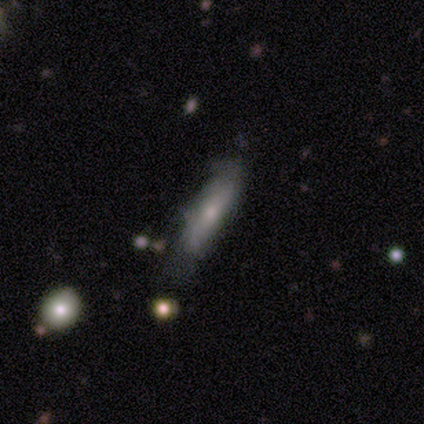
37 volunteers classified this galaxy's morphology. Smooth or featured? smooth (62%)
How rounded? cigar-shaped (96%)
Merging? none (59%)